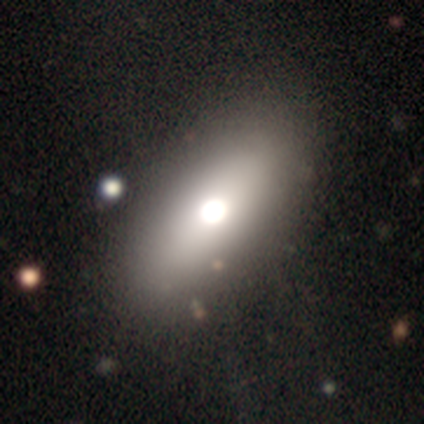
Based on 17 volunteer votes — Smooth or featured? smooth (82%)
How rounded? in between (57%)
Merging? none (29%)